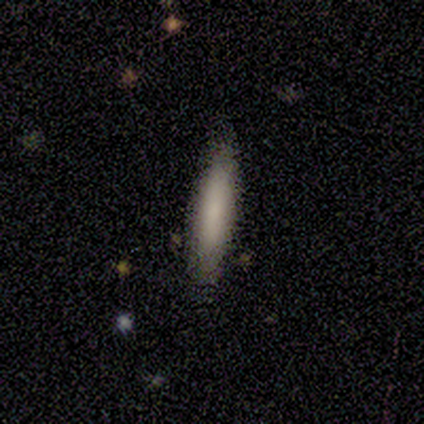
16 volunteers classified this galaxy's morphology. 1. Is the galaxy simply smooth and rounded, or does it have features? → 88% smooth, 12% star or artifact, 0% featured or disk.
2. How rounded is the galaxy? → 86% cigar-shaped, 14% in between, 0% round.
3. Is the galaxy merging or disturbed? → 93% none, 7% major disturbance, 0% minor disturbance, 0% merger.